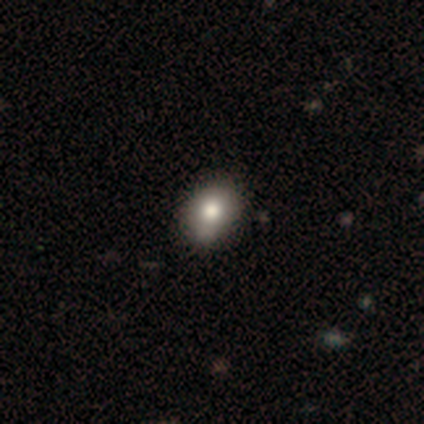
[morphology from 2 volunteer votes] type=smooth (100%); roundness=round (100%); merging=none (50%, tied with minor disturbance).